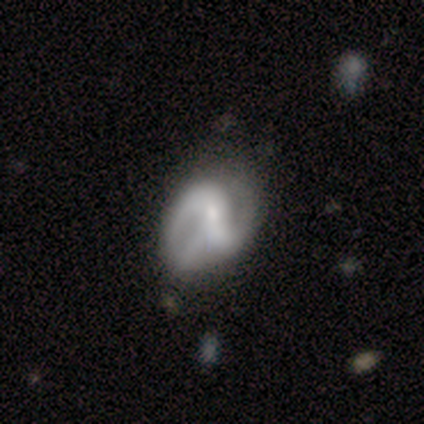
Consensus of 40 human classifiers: A featured or disk galaxy (88%) with a strong bar (37%), 2 (79%) medium (61%) spiral arms (94%) and a small central bulge (51%). Merging: none (34%).